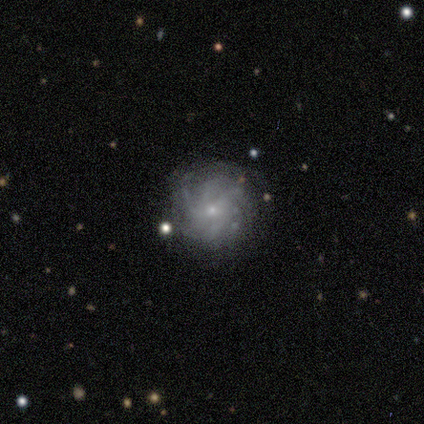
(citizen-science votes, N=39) Smooth or featured? featured or disk (77%)
Edge-on disk? no (100%)
Bar? no (73%)
Spiral arms? yes (93%)
Spiral winding? tight (57%)
Spiral arm count? more than 4 (46%)
Bulge size? small (87%)
Merging? none (78%)